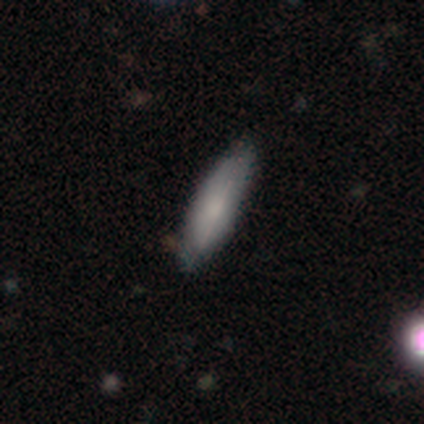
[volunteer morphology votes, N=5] This is likely a smooth galaxy (60%). How rounded: clearly cigar-shaped (100%). Merging: clearly none (100%).